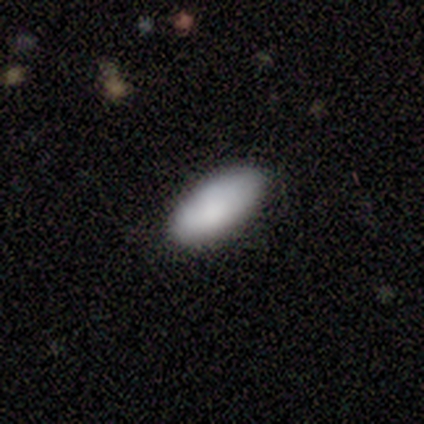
Smooth or featured: smooth — 100%
How rounded: in between — 100%
Merging: none — 100%